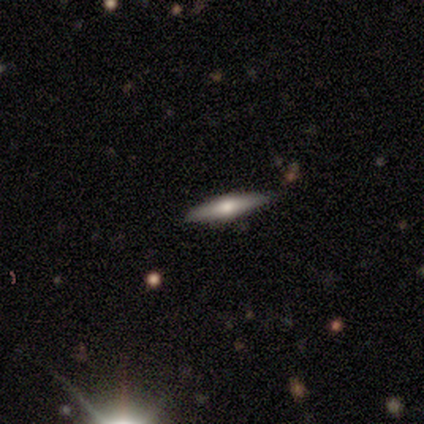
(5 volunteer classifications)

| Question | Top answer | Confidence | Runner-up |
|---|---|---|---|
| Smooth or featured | featured or disk | 60% | smooth (40%) |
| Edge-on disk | yes | 67% | no (33%) |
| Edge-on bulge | rounded | 100% | — |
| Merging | none | 100% | — |